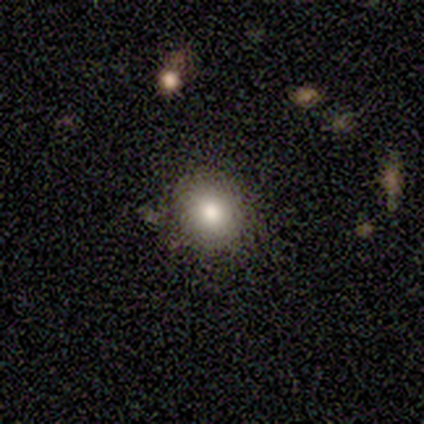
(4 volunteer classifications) Smooth or featured? 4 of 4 (100%) said smooth. How rounded? 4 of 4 (100%) said round. Merging? 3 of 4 (75%) said none.